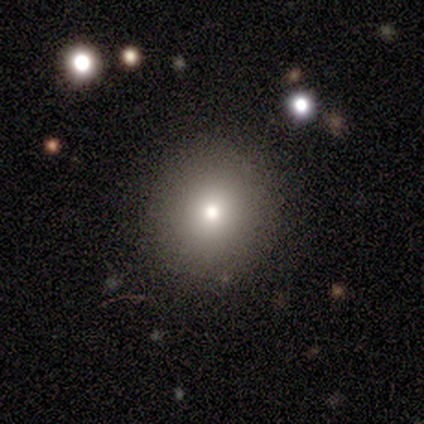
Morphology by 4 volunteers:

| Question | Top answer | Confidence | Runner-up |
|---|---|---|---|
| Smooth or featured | smooth | 50% | featured or disk (25%) |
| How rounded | round | 100% | — |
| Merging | none | 67% | major disturbance (33%) |